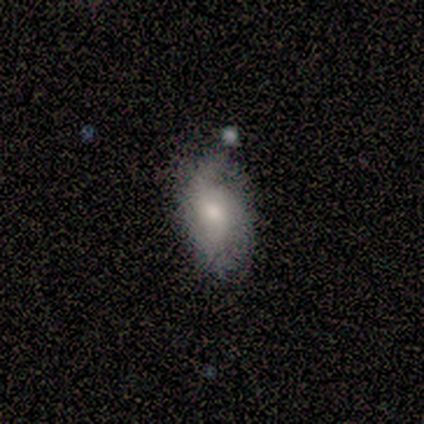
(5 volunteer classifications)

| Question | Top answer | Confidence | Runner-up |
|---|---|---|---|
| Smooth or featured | featured or disk | 80% | smooth (20%) |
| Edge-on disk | no | 100% | — |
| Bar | no | 75% | weak (25%) |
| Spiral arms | yes | 75% | no (25%) |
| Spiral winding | tight | 33% | tied: medium (33%), loose (33%) |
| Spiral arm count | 1 | 33% | tied: 2 (33%), can't tell (33%) |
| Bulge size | small | 75% | moderate (25%) |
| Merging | none | 60% | minor disturbance (40%) |